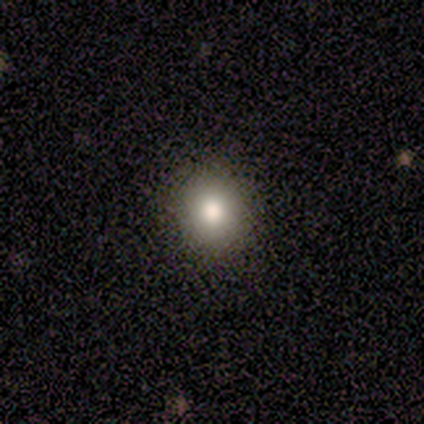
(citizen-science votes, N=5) This appears to be a smooth galaxy with no disk features (60%) that is in between round and cigar-shaped (67%). Merging: none (100%).